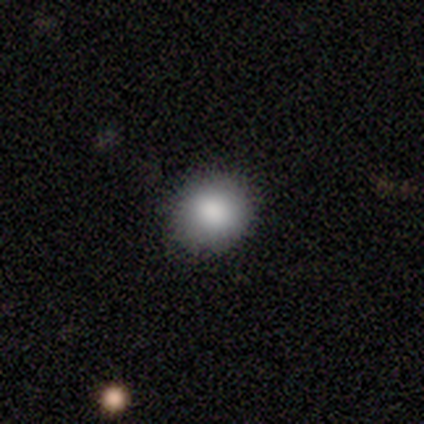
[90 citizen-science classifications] Smooth or featured?
  - smooth: 80% *
  - featured or disk: 14%
  - star or artifact: 6%
How rounded?
  - round: 82% *
  - in between: 18%
  - cigar-shaped: 0%
Merging?
  - none: 96% *
  - minor disturbance: 4%
  - major disturbance: 0%
  - merger: 0%